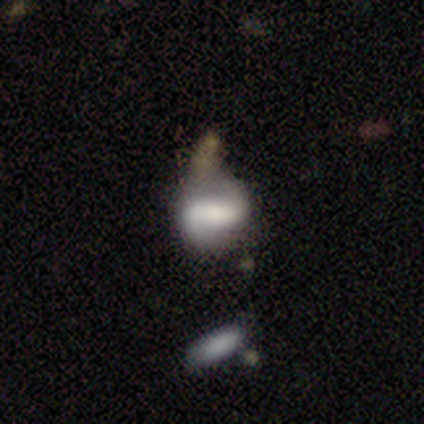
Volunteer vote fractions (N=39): Smooth or featured?
  - featured or disk: 62% *
  - smooth: 28%
  - star or artifact: 10%
Edge-on disk?
  - no: 92% *
  - yes: 8%
Bar?
  - weak: 41% *
  - strong: 36%
  - no: 23%
Spiral arms?
  - yes: 77% *
  - no: 23%
Spiral winding?
  - loose: 53% *
  - tight: 24%
  - medium: 24%
Spiral arm count?
  - 2: 94% *
  - 1: 6%
  - 3: 0%
  - 4: 0%
  - more than 4: 0%
  - can't tell: 0%
Bulge size?
  - small: 55% *
  - moderate: 23%
  - none: 14%
  - dominant: 5%
  - large: 5%
Merging?
  - none: 40% *
  - merger: 23%
  - major disturbance: 20%
  - minor disturbance: 17%